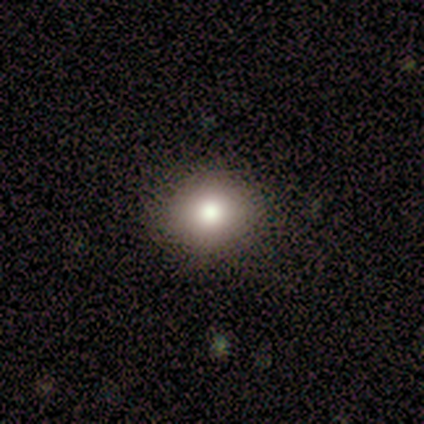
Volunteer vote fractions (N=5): smooth-or-featured: smooth: 40% (tied) | star or artifact: 40% (tied) | featured or disk: 20%
  how-rounded: round: 100% | in between: 0% | cigar-shaped: 0%
  merging: none: 100% | minor disturbance: 0% | major disturbance: 0% | merger: 0%